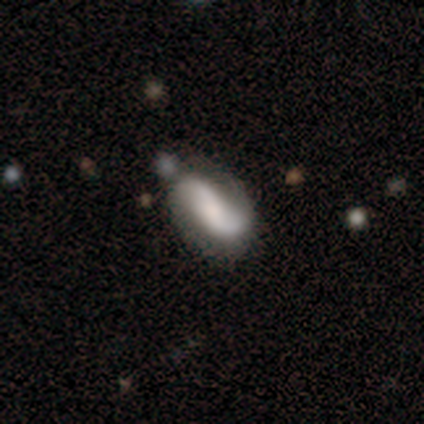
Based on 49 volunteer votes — A featured or disk galaxy (67%) with no bar (47%), 2 (97%) loose (45%) spiral arms (91%) and a moderate central bulge (41%). Merging: none (60%).